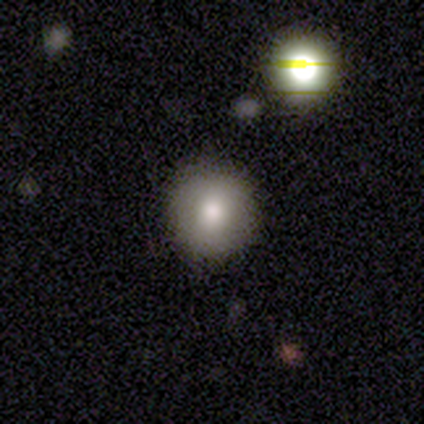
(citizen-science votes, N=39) A smooth galaxy with no disk features (67%) that is round (96%).

Vote fractions:
- Smooth or featured? smooth: 67% / star or artifact: 18% / featured or disk: 15%
- How rounded? round: 96% / in between: 4% / cigar-shaped: 0%
- Merging? none: 97% / major disturbance: 3% / minor disturbance: 0% / merger: 0%